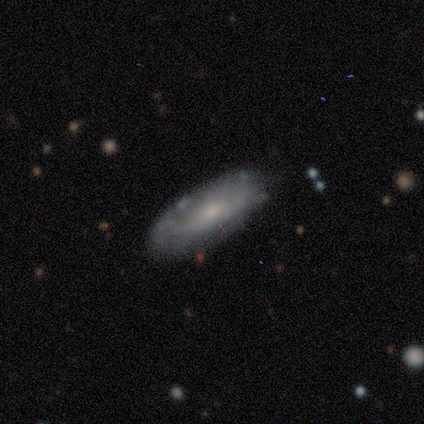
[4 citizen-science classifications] Morphology: type=featured or disk (100%); edge-on=no (100%); bar=no (75%); spiral arms=no (75%); bulge=moderate (50%, tied with small); merging=none (50%).